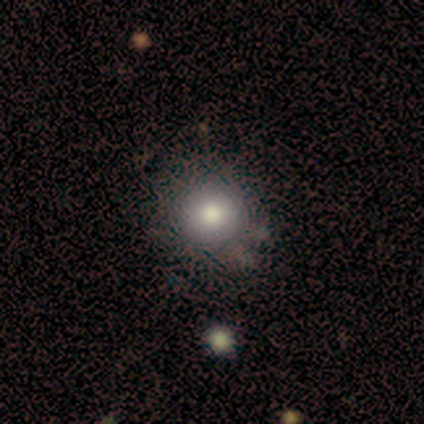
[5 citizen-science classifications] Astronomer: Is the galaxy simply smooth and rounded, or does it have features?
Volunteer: smooth — 100%.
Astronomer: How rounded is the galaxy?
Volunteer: round — 100%.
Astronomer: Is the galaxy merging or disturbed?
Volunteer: none — 80%.